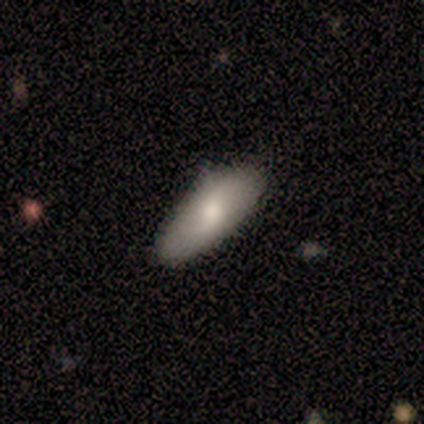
Smooth or featured? 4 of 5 (80%) said smooth. How rounded? 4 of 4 (100%) said in between. Merging? 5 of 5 (100%) said none.